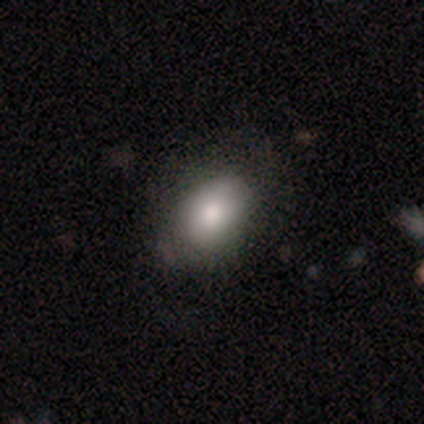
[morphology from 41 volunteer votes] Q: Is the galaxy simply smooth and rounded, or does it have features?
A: smooth — 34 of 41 (83%).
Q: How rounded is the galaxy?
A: in between — 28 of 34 (82%).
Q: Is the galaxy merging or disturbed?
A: none — 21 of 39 (54%).